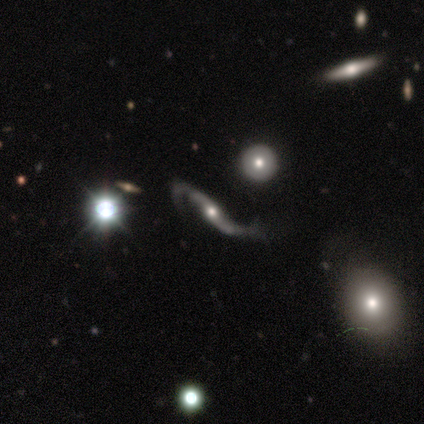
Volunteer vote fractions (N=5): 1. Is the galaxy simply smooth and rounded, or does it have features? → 80% featured or disk, 20% star or artifact, 0% smooth.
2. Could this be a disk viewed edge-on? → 75% no, 25% yes.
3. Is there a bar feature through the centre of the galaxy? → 67% no, 33% strong, 0% weak.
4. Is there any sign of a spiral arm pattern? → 100% yes, 0% no.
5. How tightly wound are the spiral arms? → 100% loose, 0% tight, 0% medium.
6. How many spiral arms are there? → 100% 2, 0% 1, 0% 3, 0% 4, 0% more than 4, 0% can't tell.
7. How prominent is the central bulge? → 100% moderate, 0% dominant, 0% large, 0% small, 0% none.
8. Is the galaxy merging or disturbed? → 50% none, 25% minor disturbance, 25% major disturbance, 0% merger.